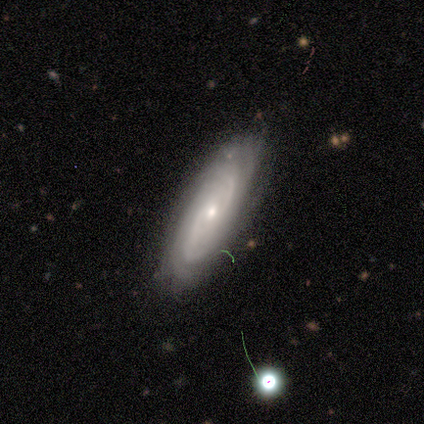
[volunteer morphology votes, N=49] Overall: featured or disk (78%). Edge-on disk: no (92%). Bar: no (66%; weak 31%). Spiral arms: yes (97%). Spiral arm count: can't tell (41%; 2 24%). Spiral winding: tight (65%). Bulge size: small (51%; moderate 40%). Merging: none (73%).